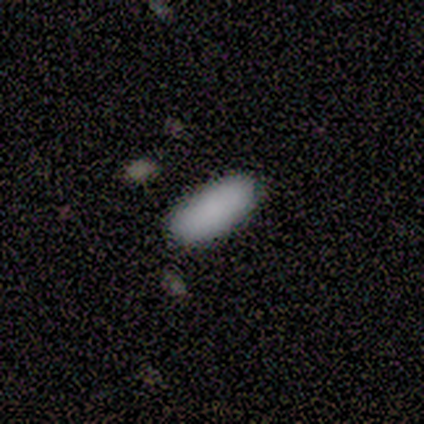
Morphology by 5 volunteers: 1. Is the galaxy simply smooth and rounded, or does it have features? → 60% star or artifact, 40% smooth, 0% featured or disk.